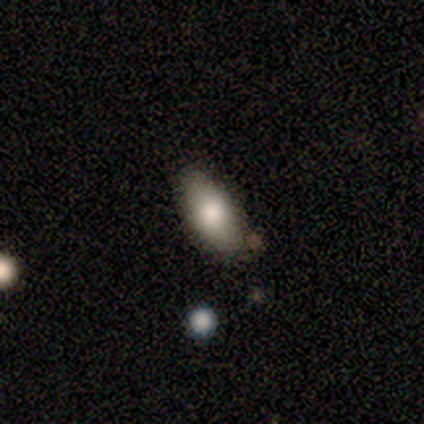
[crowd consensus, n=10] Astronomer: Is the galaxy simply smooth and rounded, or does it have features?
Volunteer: smooth — 90%.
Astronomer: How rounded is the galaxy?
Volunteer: in between — 100%.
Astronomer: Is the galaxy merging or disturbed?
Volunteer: none — 70%.